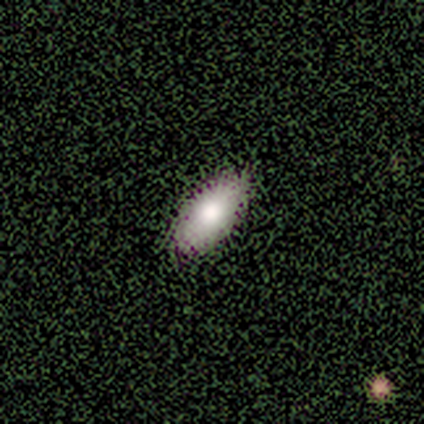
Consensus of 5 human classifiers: This appears to be a smooth galaxy with no disk features (80%) that is in between round and cigar-shaped (100%). Merging: none (100%).